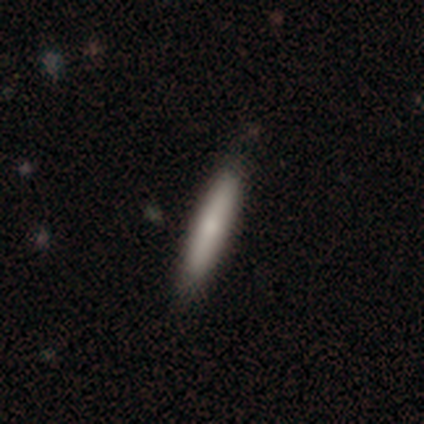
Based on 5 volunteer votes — Q: Smooth or featured?
A: smooth (100%)
Q: How rounded?
A: cigar-shaped (100%)
Q: Merging?
A: none (80%); runner-up: minor disturbance (20%)